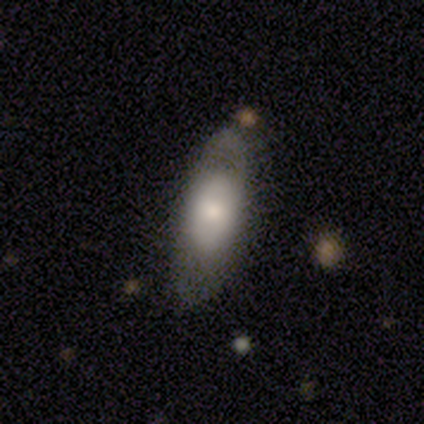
Smooth or featured?
  - smooth: 75% *
  - featured or disk: 25%
  - star or artifact: 0%
How rounded?
  - in between: 67% *
  - cigar-shaped: 33%
  - round: 0%
Merging?
  - minor disturbance: 50% *
  - none: 25%
  - major disturbance: 25%
  - merger: 0%